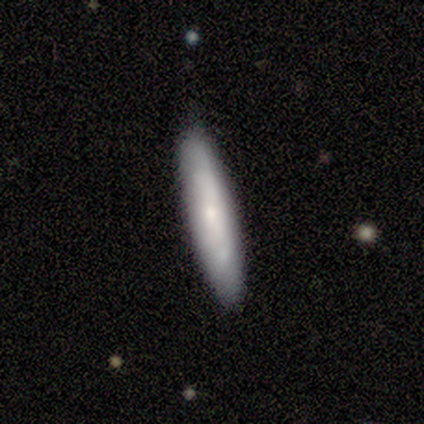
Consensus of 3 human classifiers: smooth 67%, featured or disk 33%, star or artifact 0%. Down the decision tree: how rounded — in between (50%, tied with cigar-shaped); merging — none (100%).